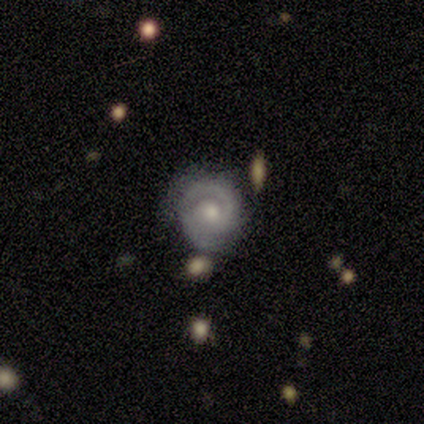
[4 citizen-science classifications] A featured or disk galaxy (100%) with no bar (100%), 2 (75%) medium (75%) spiral arms (100%) and a moderate central bulge (50%, tied with small). Merging: none (50%, tied with minor disturbance).